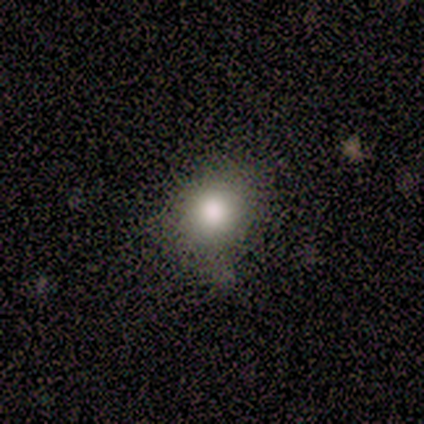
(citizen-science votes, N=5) Volunteers were most divided on "smooth or featured": smooth: 60%, star or artifact: 40%, featured or disk: 0%. More confident: merging — none (100%); how rounded — round (67%).